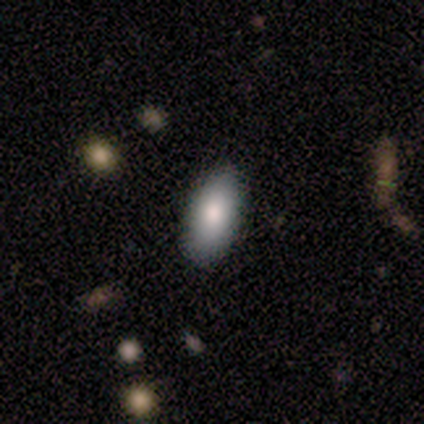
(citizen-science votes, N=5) Q: Smooth or featured?
A: smooth (100%)
Q: How rounded?
A: in between (100%)
Q: Merging?
A: none (100%)